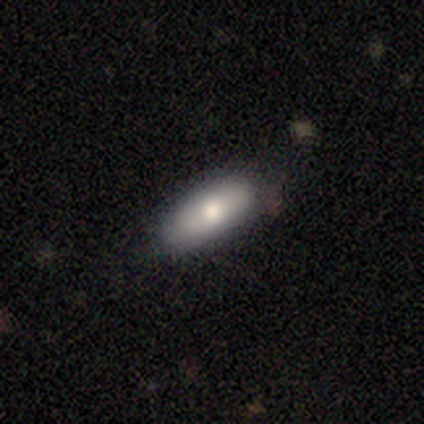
Smooth or featured? smooth (78%)
How rounded? in between (88%)
Merging? none (82%)